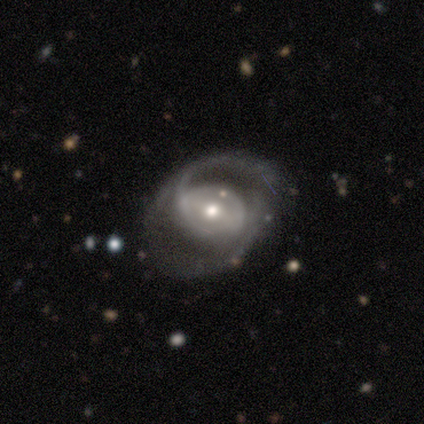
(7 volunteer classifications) smooth_or_featured: featured or disk (p=0.86) [alt: star or artifact p=0.14]
disk_edge_on: no (p=1.00)
bar: strong (p=0.33) [tied with: weak p=0.33, no p=0.33]
has_spiral_arms: yes (p=0.83) [alt: no p=0.17]
spiral_winding: medium (p=0.60) [alt: loose p=0.40]
spiral_arm_count: 2 (p=0.80) [alt: can't tell p=0.20]
bulge_size: moderate (p=0.83) [alt: small p=0.17]
merging: none (p=0.67) [alt: minor disturbance p=0.17]